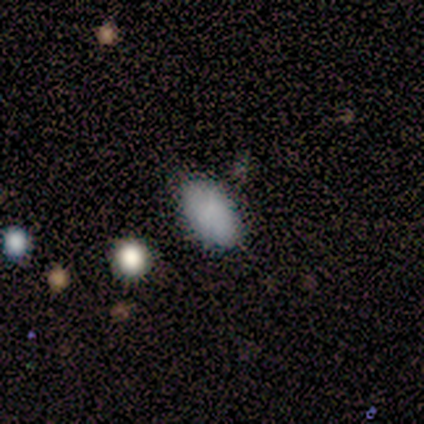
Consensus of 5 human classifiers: Smooth or featured? smooth (100%)
How rounded? in between (100%)
Merging? none (100%)